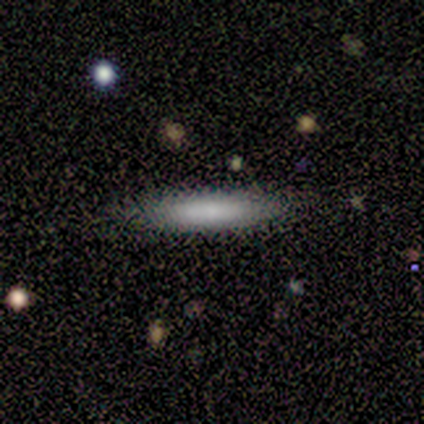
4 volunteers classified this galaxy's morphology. This appears to be a smooth galaxy with no disk features (75%) that is cigar-shaped (67%). Merging: none (100%).